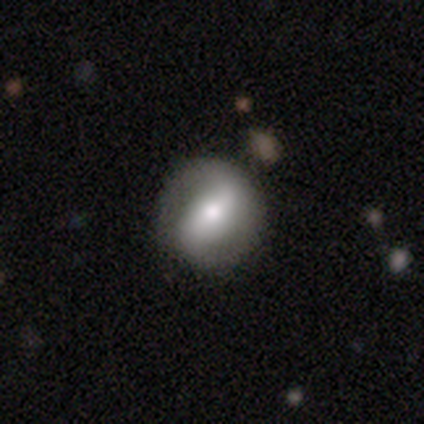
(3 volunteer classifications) Q: Smooth or featured?
A: featured or disk (67%); runner-up: smooth (33%)
Q: Edge-on disk?
A: no (100%)
Q: Bar?
A: strong (50%); tied with: weak (50%)
Q: Spiral arms?
A: yes (50%); tied with: no (50%)
Q: Spiral winding?
A: medium (100%)
Q: Spiral arm count?
A: 2 (100%)
Q: Bulge size?
A: moderate (100%)
Q: Merging?
A: none (100%)